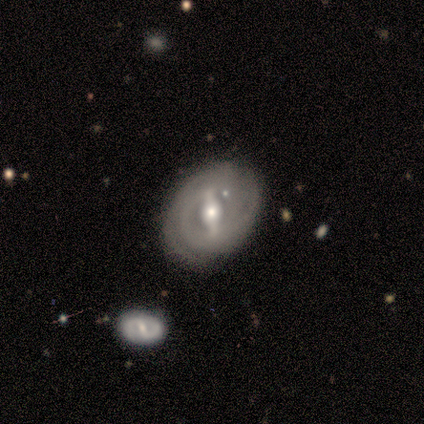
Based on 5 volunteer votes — Smooth or featured?
  - featured or disk: 100% *
  - smooth: 0%
  - star or artifact: 0%
Edge-on disk?
  - no: 80% *
  - yes: 20%
Bar?
  - strong: 50% *
  - weak: 25%
  - no: 25%
Spiral arms?
  - no: 75% *
  - yes: 25%
Bulge size?
  - moderate: 100% *
  - dominant: 0%
  - large: 0%
  - small: 0%
  - none: 0%
Merging?
  - none: 100% *
  - minor disturbance: 0%
  - major disturbance: 0%
  - merger: 0%